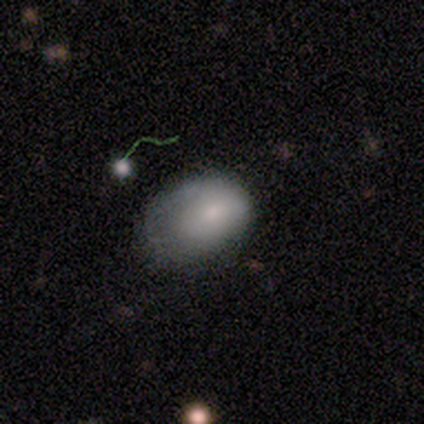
A smooth galaxy with no disk features (60%) that is in between round and cigar-shaped (100%). Merging: minor disturbance (40%, tied with major disturbance).